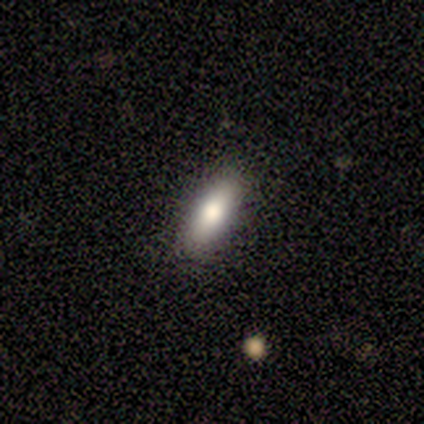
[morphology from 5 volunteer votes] Smooth or featured?
  - smooth: 60% *
  - featured or disk: 20%
  - star or artifact: 20%
How rounded?
  - in between: 67% *
  - cigar-shaped: 33%
  - round: 0%
Merging?
  - none: 100% *
  - minor disturbance: 0%
  - major disturbance: 0%
  - merger: 0%